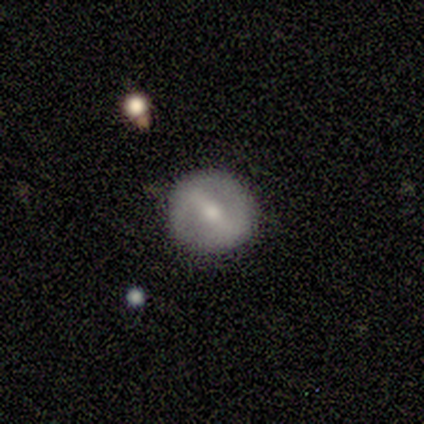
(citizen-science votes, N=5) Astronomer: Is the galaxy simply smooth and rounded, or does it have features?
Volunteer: featured or disk — 100%.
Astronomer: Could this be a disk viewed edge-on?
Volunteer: no — 100%.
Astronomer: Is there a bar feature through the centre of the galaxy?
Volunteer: strong — 100%.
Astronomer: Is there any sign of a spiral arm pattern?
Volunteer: no — 100%.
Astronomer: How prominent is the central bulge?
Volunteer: moderate — 80%.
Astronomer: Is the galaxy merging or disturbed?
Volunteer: none — 80%.